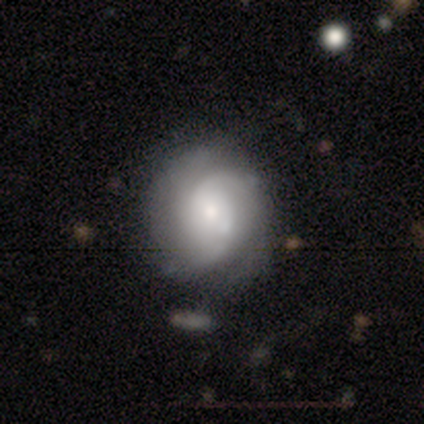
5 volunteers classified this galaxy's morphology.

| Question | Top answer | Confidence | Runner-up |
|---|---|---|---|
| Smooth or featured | featured or disk | 60% | smooth (40%) |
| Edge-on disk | no | 100% | — |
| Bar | no | 100% | — |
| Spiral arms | yes | 100% | — |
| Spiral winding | medium | 67% | tight (33%) |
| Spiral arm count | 2 | 67% | can't tell (33%) |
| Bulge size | dominant | 33% | tied: moderate (33%), small (33%) |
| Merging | minor disturbance | 60% | none (40%) |